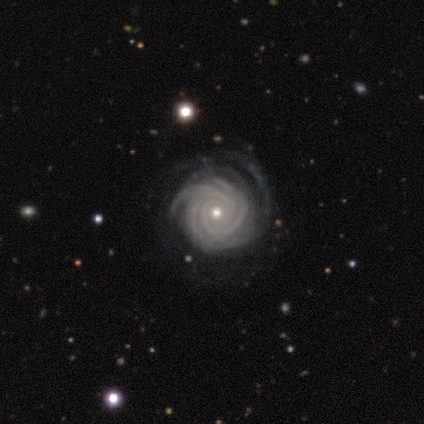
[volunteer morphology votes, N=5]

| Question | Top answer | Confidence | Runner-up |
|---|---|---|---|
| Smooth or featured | featured or disk | 100% | — |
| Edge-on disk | no | 100% | — |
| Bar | no | 100% | — |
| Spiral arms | yes | 100% | — |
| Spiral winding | tight | 100% | — |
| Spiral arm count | can't tell | 60% | more than 4 (40%) |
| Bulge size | moderate | 100% | — |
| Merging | none | 60% | minor disturbance (40%) |